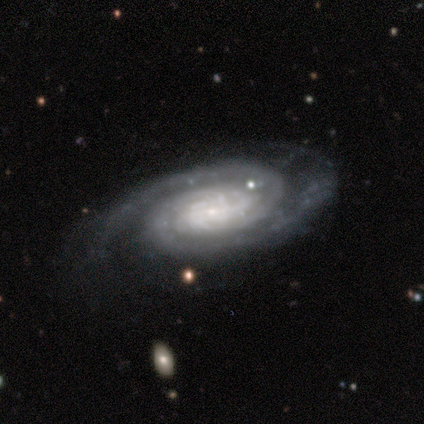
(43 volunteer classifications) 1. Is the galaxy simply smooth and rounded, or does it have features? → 91% featured or disk, 7% star or artifact, 2% smooth.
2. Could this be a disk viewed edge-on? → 100% no, 0% yes.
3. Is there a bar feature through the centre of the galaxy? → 62% no, 33% weak, 5% strong.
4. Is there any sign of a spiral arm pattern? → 97% yes, 3% no.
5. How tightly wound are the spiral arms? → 66% tight, 26% medium, 8% loose.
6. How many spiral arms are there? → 66% 2, 18% can't tell, 8% 3, 3% 1, 3% 4, 3% more than 4.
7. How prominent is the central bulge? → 67% small, 21% moderate, 10% none, 3% large, 0% dominant.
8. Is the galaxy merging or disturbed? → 57% none, 28% minor disturbance, 10% major disturbance, 5% merger.